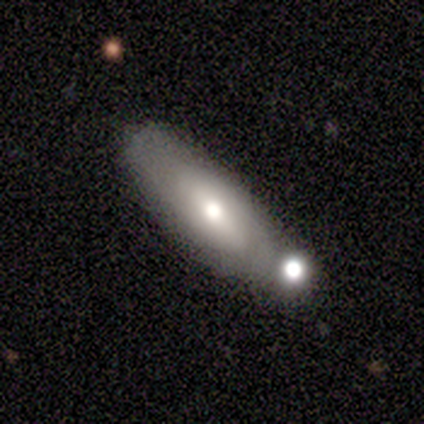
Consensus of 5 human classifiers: A featured or disk galaxy (60%) with a weak bar (50%, tied with no), medium (100%) spiral arms (50%, tied with no) and a moderate central bulge (100%).

Vote fractions:
- Smooth or featured? featured or disk: 60% / smooth: 20% / star or artifact: 20%
- Edge-on disk? no: 67% / yes: 33%
- Bar? weak: 50% (tied) / no: 50% (tied) / strong: 0%
- Spiral arms? yes: 50% (tied) / no: 50% (tied)
- Spiral winding? medium: 100% / tight: 0% / loose: 0%
- Spiral arm count? can't tell: 100% / 1: 0% / 2: 0% / 3: 0% / 4: 0% / more than 4: 0%
- Bulge size? moderate: 100% / dominant: 0% / large: 0% / small: 0% / none: 0%
- Merging? none: 50% / minor disturbance: 25% / major disturbance: 25% / merger: 0%